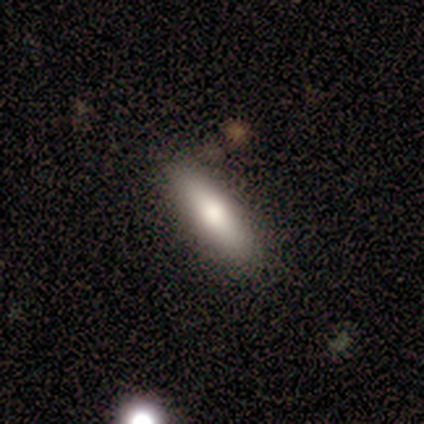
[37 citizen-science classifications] Morphology: type=smooth (73%); roundness=cigar-shaped (70%); merging=none (86%).